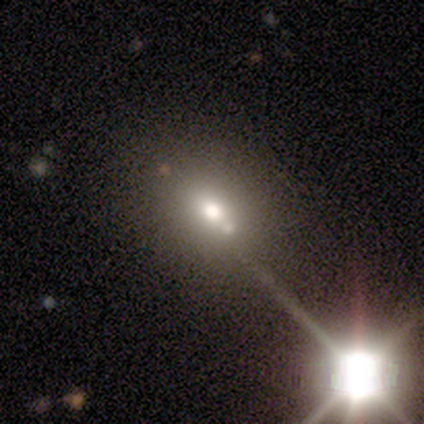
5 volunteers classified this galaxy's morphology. smooth-or-featured: smooth: 60% | star or artifact: 40% | featured or disk: 0%
  how-rounded: in between: 67% | round: 33% | cigar-shaped: 0%
  merging: none: 100% | minor disturbance: 0% | major disturbance: 0% | merger: 0%